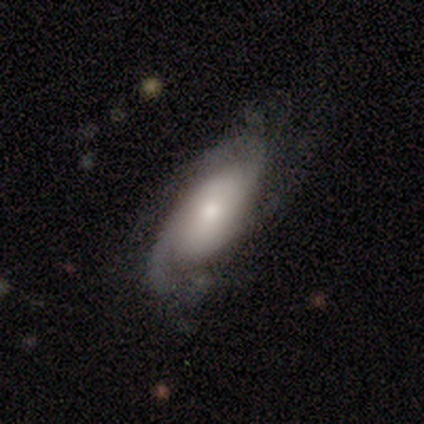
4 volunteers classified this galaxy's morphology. Smooth or featured? 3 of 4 (75%) said featured or disk. Edge-on disk? 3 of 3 (100%) said no. Bar? 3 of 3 (100%) said no. Spiral arms? 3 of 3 (100%) said yes. Spiral winding? 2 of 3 (67%) said loose. Spiral arm count? 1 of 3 (33%, tied with 2 and can't tell) said 1. Bulge size? 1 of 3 (33%, tied with moderate and small) said large. Merging? 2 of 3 (67%) said none.